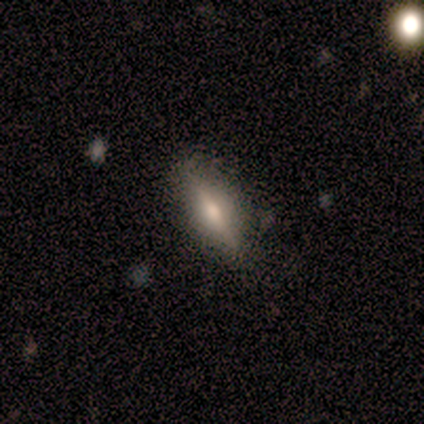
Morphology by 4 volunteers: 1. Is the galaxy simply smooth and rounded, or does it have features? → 50% smooth (tied), 50% featured or disk (tied), 0% star or artifact.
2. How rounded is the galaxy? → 50% in between (tied), 50% cigar-shaped (tied), 0% round.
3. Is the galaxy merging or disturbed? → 100% none, 0% minor disturbance, 0% major disturbance, 0% merger.